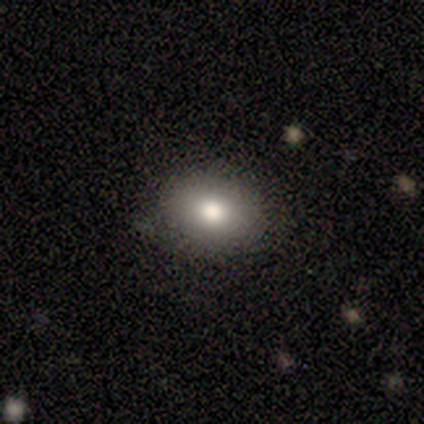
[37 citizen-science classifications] Morphology: type=smooth (81%); roundness=in between (67%); merging=none (85%).